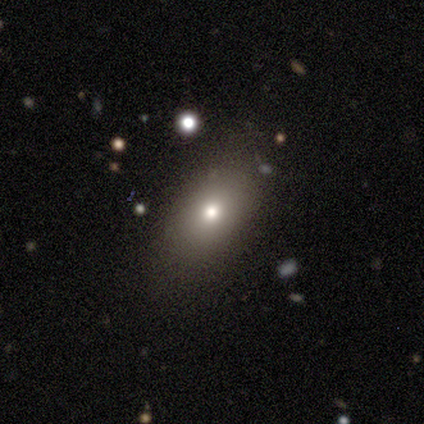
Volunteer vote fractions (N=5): smooth 60%, star or artifact 40%, featured or disk 0%. Down the decision tree: how rounded — in between (67%); merging — none (67%).